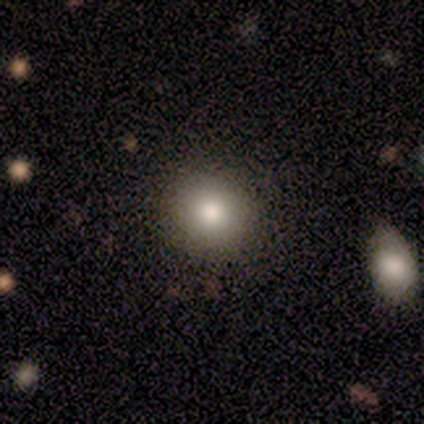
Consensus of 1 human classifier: Smooth or featured? smooth (100%)
How rounded? round (100%)
Merging? none (100%)